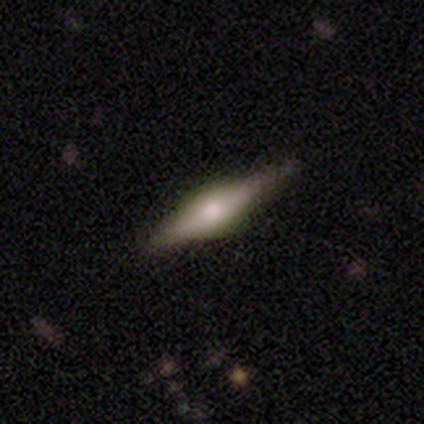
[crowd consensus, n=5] Smooth or featured? featured or disk (80%)
Edge-on disk? yes (100%)
Edge-on bulge? rounded (100%)
Merging? none (80%)